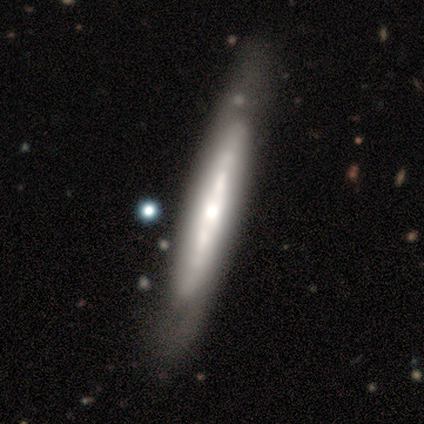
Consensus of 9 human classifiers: Smooth or featured? 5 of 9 (56%) said featured or disk. Edge-on disk? 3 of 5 (60%) said yes. Edge-on bulge? 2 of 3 (67%) said rounded. Merging? 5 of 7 (71%) said none.